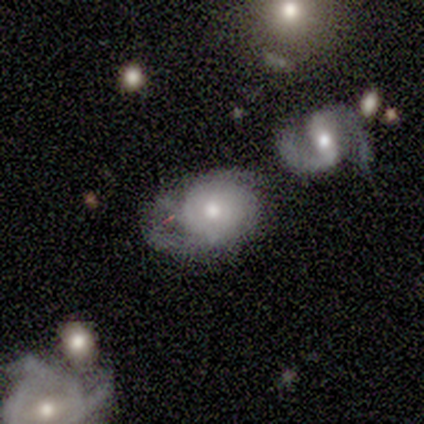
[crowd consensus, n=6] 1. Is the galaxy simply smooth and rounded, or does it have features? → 67% featured or disk, 17% smooth, 17% star or artifact.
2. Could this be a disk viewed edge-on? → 100% no, 0% yes.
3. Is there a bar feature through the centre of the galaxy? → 100% no, 0% strong, 0% weak.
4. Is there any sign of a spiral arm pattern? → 75% yes, 25% no.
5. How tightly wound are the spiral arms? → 67% medium, 33% tight, 0% loose.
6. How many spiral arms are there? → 33% 1 (tied), 33% 2 (tied), 33% can't tell (tied), 0% 3, 0% 4, 0% more than 4.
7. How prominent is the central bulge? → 50% small, 25% large, 25% moderate, 0% dominant, 0% none.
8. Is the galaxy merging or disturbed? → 60% minor disturbance, 40% major disturbance, 0% none, 0% merger.